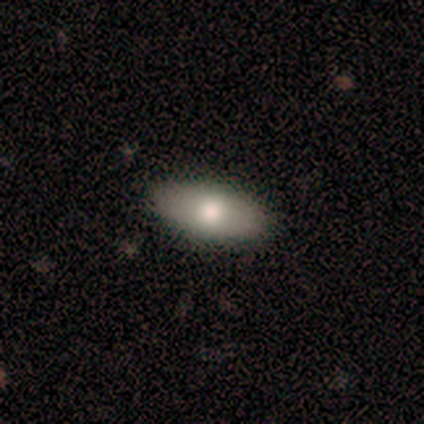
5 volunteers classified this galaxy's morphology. Smooth or featured?
  - smooth: 80% *
  - featured or disk: 20%
  - star or artifact: 0%
How rounded?
  - in between: 100% *
  - round: 0%
  - cigar-shaped: 0%
Merging?
  - none: 100% *
  - minor disturbance: 0%
  - major disturbance: 0%
  - merger: 0%